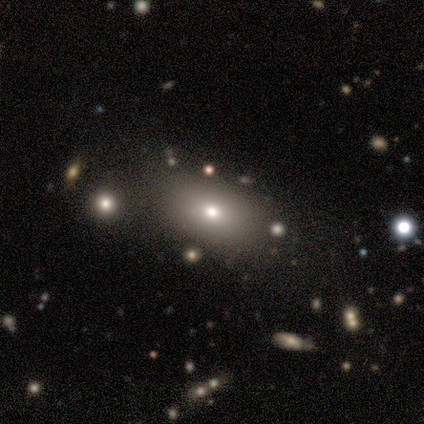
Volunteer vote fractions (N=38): This appears to be a smooth galaxy with no disk features (84%) that is in between round and cigar-shaped (91%). Merging: none (89%).